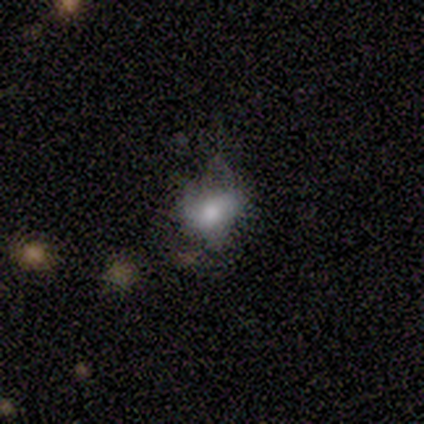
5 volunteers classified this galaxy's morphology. Overall: smooth (80%). How rounded: in between (75%). Merging: none (50%; minor disturbance 25%).